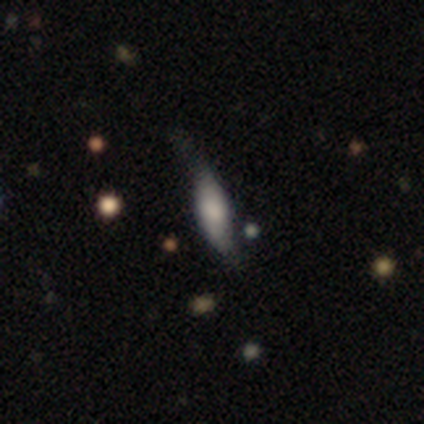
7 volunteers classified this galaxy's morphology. Smooth or featured: smooth — 57% (featured or disk — 43%)
How rounded: in between — 50% (tied with cigar-shaped — 50%)
Merging: minor disturbance — 71% (none — 14%)